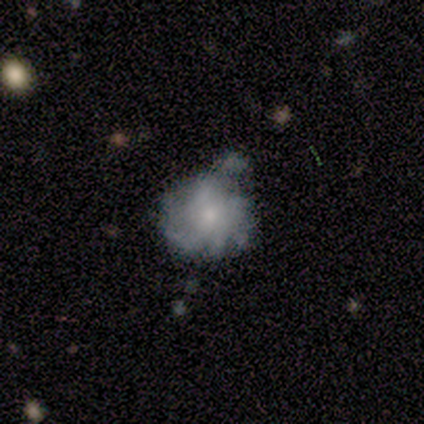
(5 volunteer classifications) Overall: featured or disk (80%). Edge-on disk: no (100%). Bar: no (75%). Spiral arms: yes (50%, tied with no). Spiral arm count: more than 4 (50%, tied with can't tell). Spiral winding: medium (50%, tied with loose). Bulge size: small (50%; moderate 25%). Merging: minor disturbance (40%; none 20%).